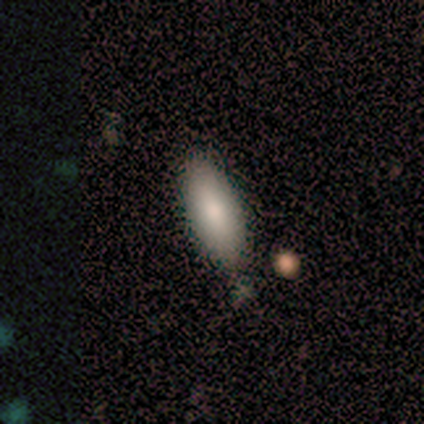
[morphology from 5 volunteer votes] Smooth or featured?
  - smooth: 80% *
  - featured or disk: 20%
  - star or artifact: 0%
How rounded?
  - in between: 100% *
  - round: 0%
  - cigar-shaped: 0%
Merging?
  - none: 80% *
  - minor disturbance: 20%
  - major disturbance: 0%
  - merger: 0%